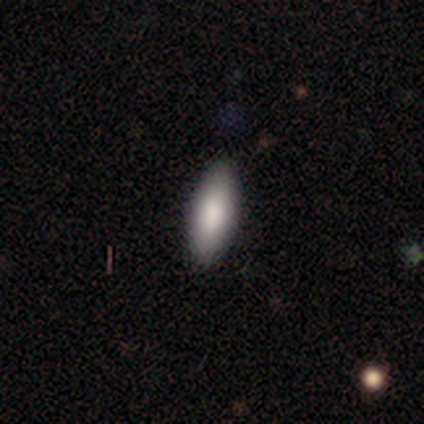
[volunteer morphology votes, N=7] Smooth or featured: smooth — 100%
How rounded: in between — 71% (cigar-shaped — 29%)
Merging: none — 100%